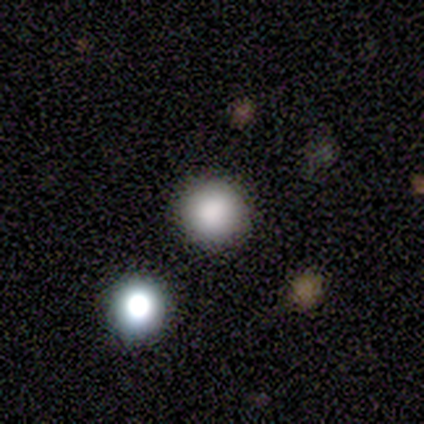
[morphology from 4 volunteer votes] Overall: smooth (75%). How rounded: round (100%). Merging: none (100%).